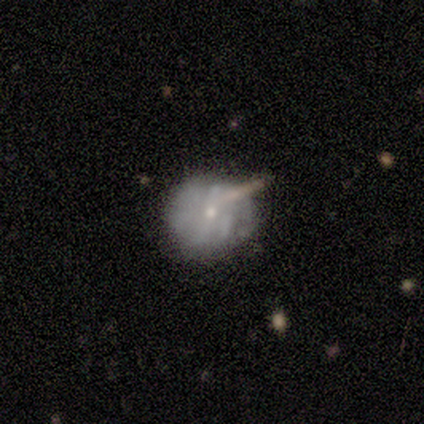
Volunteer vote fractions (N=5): Smooth or featured: featured or disk — 80% (smooth — 20%)
Edge-on disk: no — 100%
Bar: no — 75% (weak — 25%)
Spiral arms: yes — 50% (tied with no — 50%)
Spiral winding: medium — 100%
Spiral arm count: 2 — 50% (tied with can't tell — 50%)
Bulge size: small — 100%
Merging: none — 80% (minor disturbance — 20%)